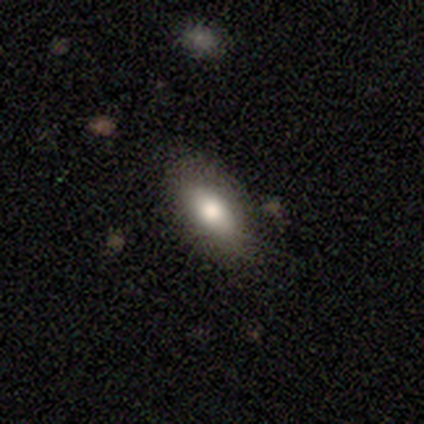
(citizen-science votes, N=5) smooth 100%, featured or disk 0%, star or artifact 0%. Down the decision tree: how rounded — in between (100%); merging — none (100%).